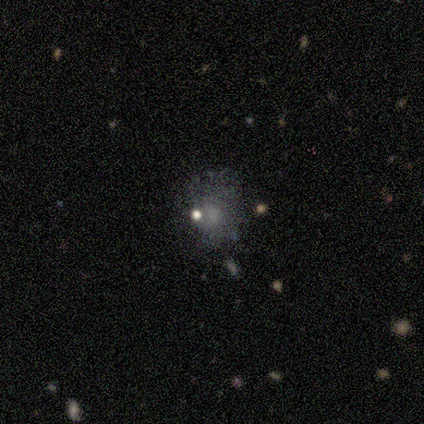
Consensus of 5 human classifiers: A smooth galaxy with no disk features (60%) that is round (67%). Merging: none (50%, tied with minor disturbance).